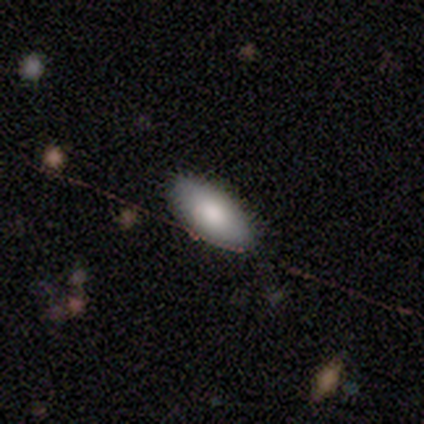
Smooth or featured? smooth (88%)
How rounded? in between (86%)
Merging? none (100%)